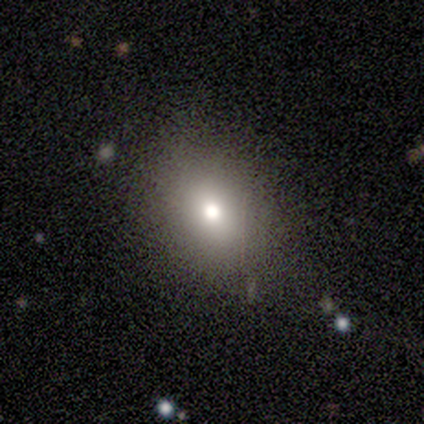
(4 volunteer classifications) smooth_or_featured: featured or disk (p=0.50) [alt: smooth p=0.25]
disk_edge_on: no (p=1.00)
bar: no (p=1.00)
has_spiral_arms: no (p=1.00)
bulge_size: moderate (p=1.00)
merging: none (p=1.00)